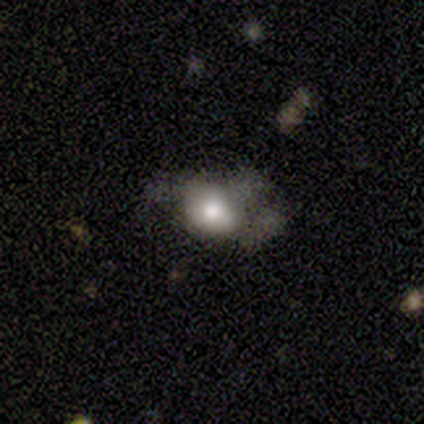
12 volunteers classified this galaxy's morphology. A smooth galaxy with no disk features (83%) that is in between round and cigar-shaped (70%). Merging: major disturbance (58%).